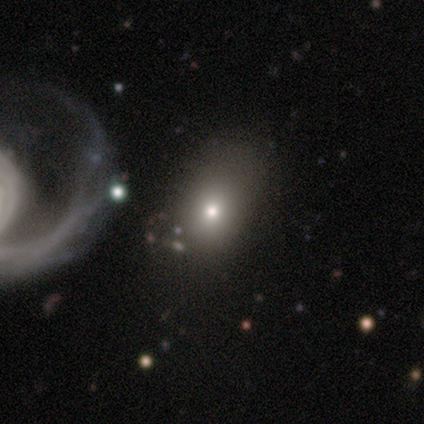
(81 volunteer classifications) A smooth galaxy with no disk features (72%) that is in between round and cigar-shaped (72%).

Vote fractions:
- Smooth or featured? smooth: 72% / featured or disk: 19% / star or artifact: 10%
- How rounded? in between: 72% / round: 28% / cigar-shaped: 0%
- Merging? none: 27% / merger: 15% / minor disturbance: 11% / major disturbance: 8%